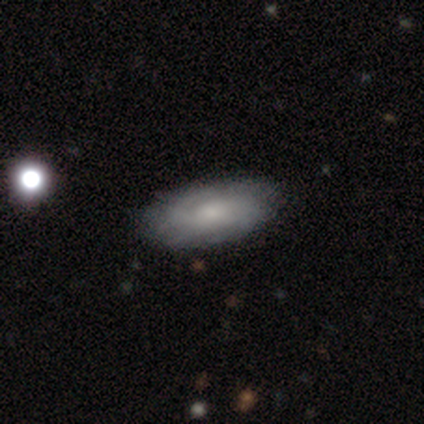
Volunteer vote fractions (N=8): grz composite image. It shows a smooth galaxy with no disk features (75%) that is in between round and cigar-shaped (100%). Merging: none (75%).